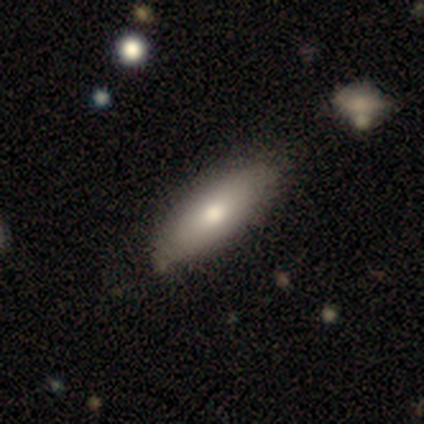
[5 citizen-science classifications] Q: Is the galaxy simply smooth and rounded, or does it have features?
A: smooth — 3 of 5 (60%).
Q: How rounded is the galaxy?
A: in between — 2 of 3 (67%).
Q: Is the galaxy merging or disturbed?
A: none — 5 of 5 (100%).